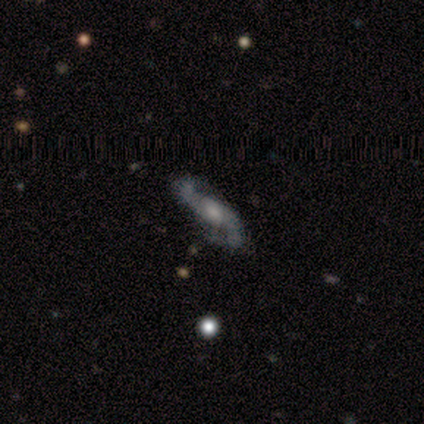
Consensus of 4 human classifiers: Volunteers were most divided on "edge-on disk" (2-way tie): yes: 50%, no: 50%. More confident: edge-on bulge — rounded (100%); merging — none (100%); smooth or featured — featured or disk (50%).